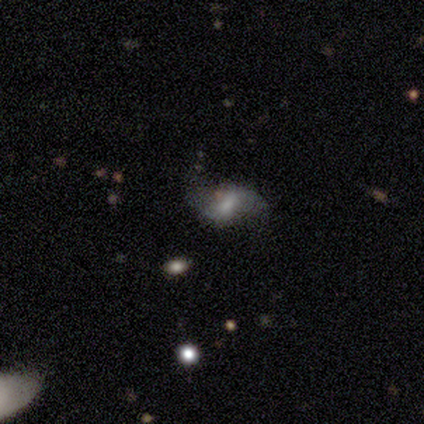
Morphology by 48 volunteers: featured or disk 60%, smooth 33%, star or artifact 6%. Down the decision tree: edge-on disk — no (93%); bar — weak (52%); spiral arms — yes (96%); spiral arm count — 2 (85%); spiral winding — loose (96%); bulge size — moderate (33%); merging — none (56%).